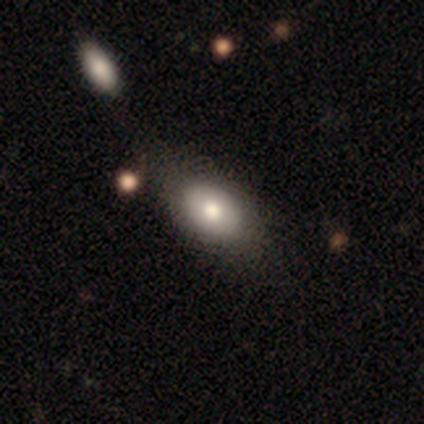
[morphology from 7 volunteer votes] Smooth or featured?
  - smooth: 86% *
  - featured or disk: 14%
  - star or artifact: 0%
How rounded?
  - in between: 100% *
  - round: 0%
  - cigar-shaped: 0%
Merging?
  - none: 71% *
  - minor disturbance: 29%
  - major disturbance: 0%
  - merger: 0%